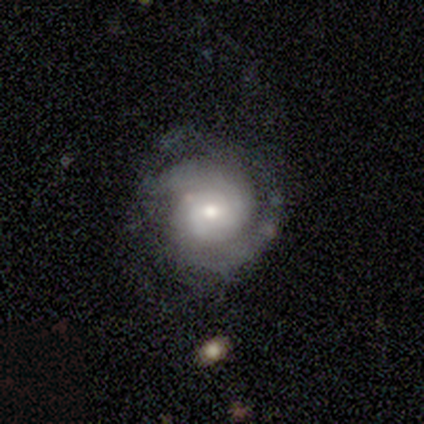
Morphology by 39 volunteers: A featured or disk galaxy (72%) with no bar (64%), 2 (39%) tight (64%) spiral arms (100%) and a moderate central bulge (54%).

Vote fractions:
- Smooth or featured? featured or disk: 72% / smooth: 21% / star or artifact: 8%
- Edge-on disk? no: 100% / yes: 0%
- Bar? no: 64% / weak: 29% / strong: 7%
- Spiral arms? yes: 100% / no: 0%
- Spiral winding? tight: 64% / medium: 25% / loose: 11%
- Spiral arm count? 2: 39% / 3: 29% / can't tell: 21% / 4: 7% / 1: 4% / more than 4: 0%
- Bulge size? moderate: 54% / small: 46% / dominant: 0% / large: 0% / none: 0%
- Merging? none: 78% / major disturbance: 14% / minor disturbance: 8% / merger: 0%